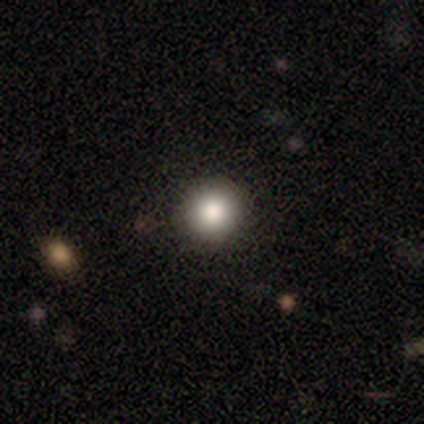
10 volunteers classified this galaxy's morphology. smooth 90%, star or artifact 10%, featured or disk 0%. Down the decision tree: how rounded — round (100%); merging — none (100%).